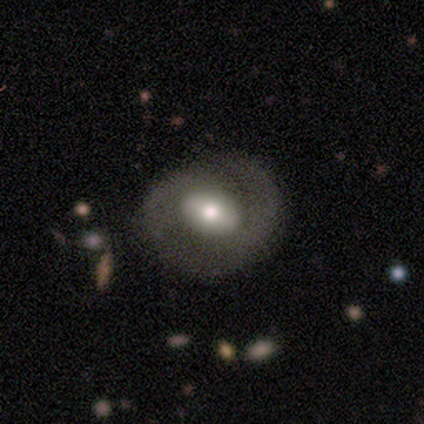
featured or disk 59%, smooth 33%, star or artifact 8%. Down the decision tree: edge-on disk — no (98%); bar — no (36%); spiral arms — yes (80%); spiral arm count — 2 (52%); spiral winding — tight (42%); bulge size — moderate (52%); merging — none (69%).